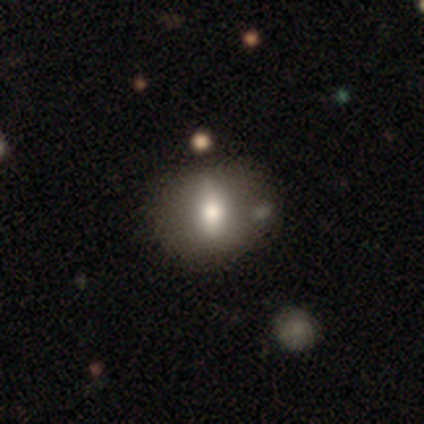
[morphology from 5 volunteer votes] smooth 60%, featured or disk 40%, star or artifact 0%. Down the decision tree: how rounded — round (33%, tied with in between and cigar-shaped); merging — none (80%).